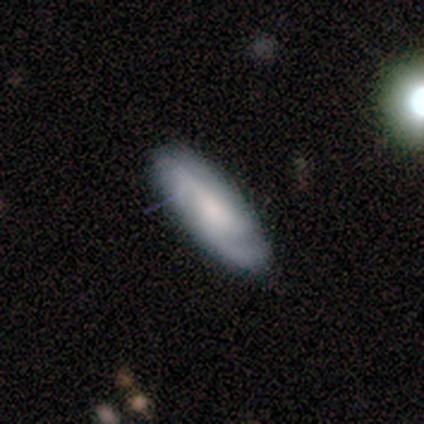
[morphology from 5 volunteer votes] featured or disk 60%, smooth 40%, star or artifact 0%. Down the decision tree: edge-on disk — no (67%); bar — no (100%); spiral arms — yes (100%); spiral arm count — 3 (100%); spiral winding — tight (50%, tied with loose); bulge size — moderate (100%); merging — none (80%).